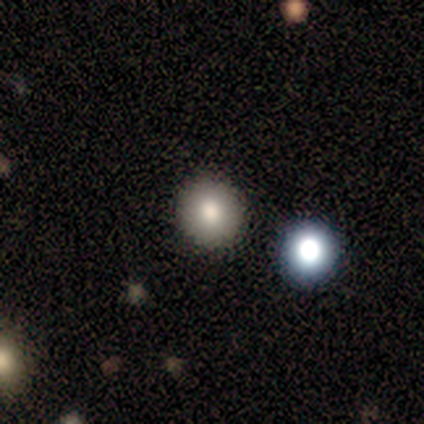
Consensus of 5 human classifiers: Smooth or featured? smooth (60%)
How rounded? round (67%)
Merging? none (100%)